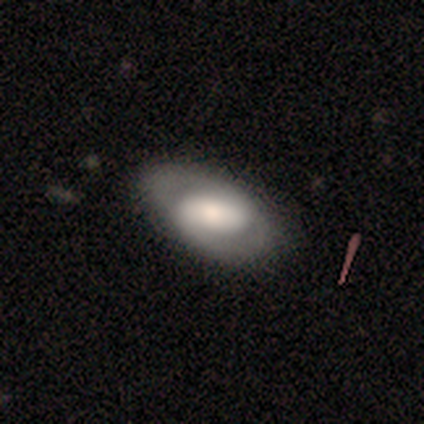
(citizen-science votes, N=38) Smooth or featured: featured or disk — 63% (smooth — 32%)
Edge-on disk: no — 96% (yes — 4%)
Bar: no — 48% (strong — 26%)
Spiral arms: yes — 70% (no — 30%)
Spiral winding: tight — 62% (loose — 25%)
Spiral arm count: 2 — 75% (can't tell — 19%)
Bulge size: moderate — 48% (large — 35%)
Merging: none — 81% (minor disturbance — 17%)